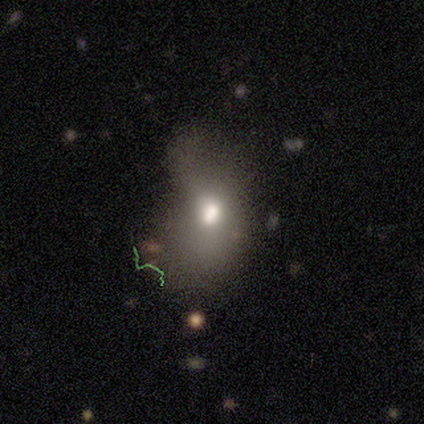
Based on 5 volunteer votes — Smooth or featured? 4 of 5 (80%) said featured or disk. Edge-on disk? 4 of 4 (100%) said no. Bar? 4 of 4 (100%) said no. Spiral arms? 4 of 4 (100%) said no. Bulge size? 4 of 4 (100%) said moderate. Merging? 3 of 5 (60%) said none.